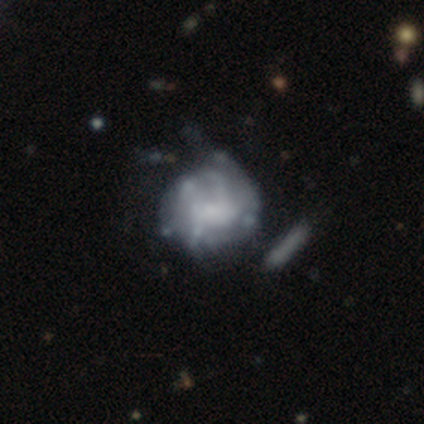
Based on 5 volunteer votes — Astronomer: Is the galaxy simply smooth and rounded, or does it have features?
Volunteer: featured or disk — 80%.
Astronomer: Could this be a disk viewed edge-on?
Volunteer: no — 100%.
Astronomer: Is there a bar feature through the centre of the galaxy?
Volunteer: weak — 50%, tied with no at 50%.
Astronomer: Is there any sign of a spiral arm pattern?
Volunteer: no — 75%.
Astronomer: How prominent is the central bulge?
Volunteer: large — 50%.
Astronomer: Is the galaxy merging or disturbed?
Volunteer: none — 50%.